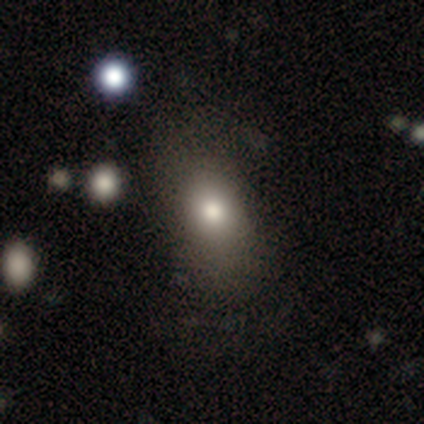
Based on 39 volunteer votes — Smooth or featured? 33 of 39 (85%) said smooth. How rounded? 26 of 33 (79%) said in between. Merging? 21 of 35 (60%) said none.